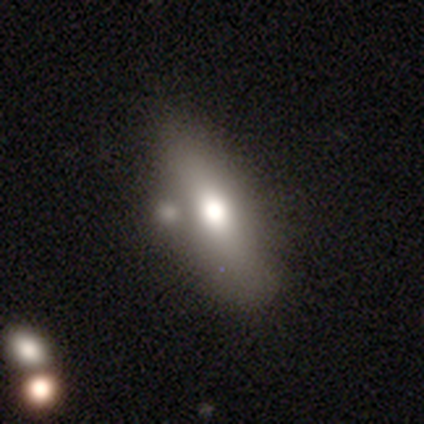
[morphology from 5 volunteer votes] type=featured or disk (60%); edge-on=yes (100%); edge-on bulge=rounded (100%); merging=none (60%).